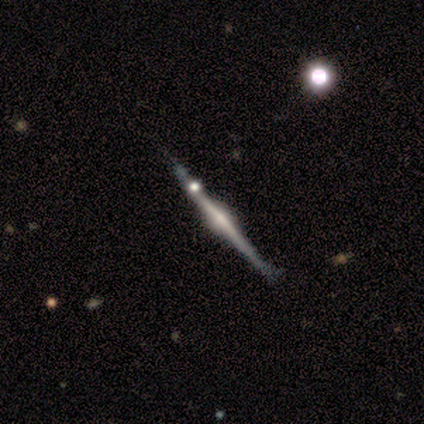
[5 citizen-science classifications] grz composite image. It shows a featured or disk galaxy (60%) viewed edge-on (100%) with a rounded central bulge (67%). Merging: none (100%).